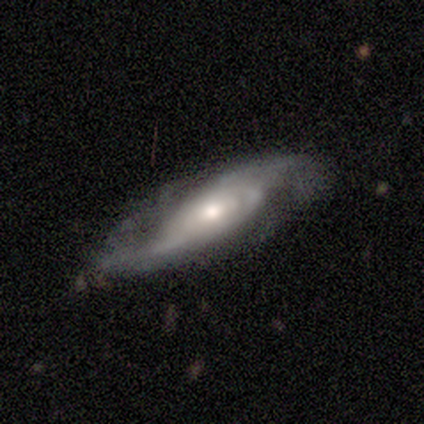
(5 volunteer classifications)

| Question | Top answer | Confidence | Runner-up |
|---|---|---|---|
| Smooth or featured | featured or disk | 80% | star or artifact (20%) |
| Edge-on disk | no | 100% | — |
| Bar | no | 100% | — |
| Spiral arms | yes | 100% | — |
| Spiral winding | loose | 75% | tight (25%) |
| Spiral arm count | can't tell | 50% | 1 (25%) |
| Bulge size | small | 50% | large (25%) |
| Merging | none | 75% | major disturbance (25%) |